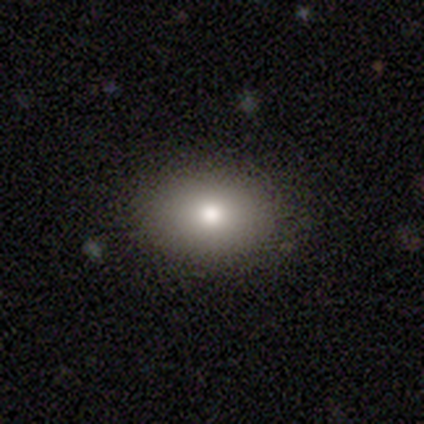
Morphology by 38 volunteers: A smooth galaxy with no disk features (82%) that is in between round and cigar-shaped (90%). Merging: none (89%).